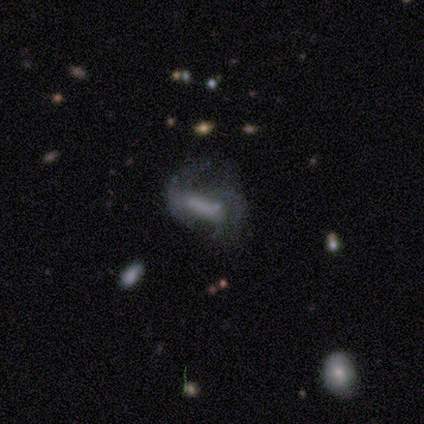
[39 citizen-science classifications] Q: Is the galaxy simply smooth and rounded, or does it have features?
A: featured or disk — 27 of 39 (69%).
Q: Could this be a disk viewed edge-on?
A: no — 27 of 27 (100%).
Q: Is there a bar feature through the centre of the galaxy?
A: strong — 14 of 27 (52%).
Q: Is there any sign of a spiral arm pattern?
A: yes — 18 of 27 (67%).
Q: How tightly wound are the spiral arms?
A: medium — 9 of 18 (50%).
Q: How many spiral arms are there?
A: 2 — 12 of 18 (67%).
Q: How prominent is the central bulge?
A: none — 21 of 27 (78%).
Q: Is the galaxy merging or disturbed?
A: major disturbance — 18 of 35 (51%).